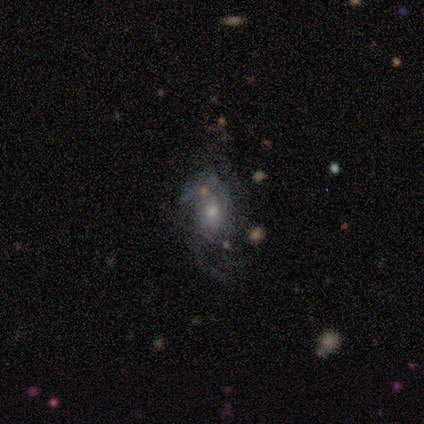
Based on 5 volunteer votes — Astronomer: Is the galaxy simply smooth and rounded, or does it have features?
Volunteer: featured or disk — 60% (runner-up: star or artifact, 40%).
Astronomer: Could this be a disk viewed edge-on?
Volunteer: no — 100%.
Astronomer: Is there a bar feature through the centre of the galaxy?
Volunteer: no — 100%.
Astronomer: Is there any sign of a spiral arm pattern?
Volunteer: no — 67%.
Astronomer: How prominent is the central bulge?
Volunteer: small — 100%.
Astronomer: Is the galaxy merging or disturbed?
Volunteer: none — 33%, tied with minor disturbance and major disturbance at 33%.